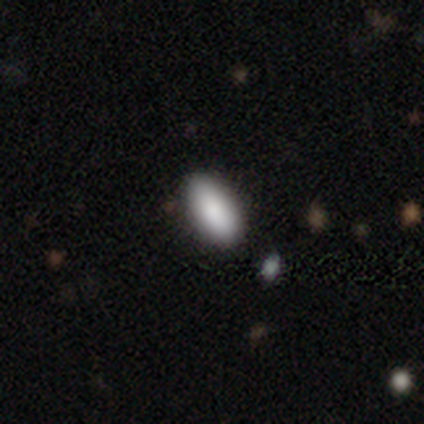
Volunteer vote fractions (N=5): This appears to be a smooth galaxy with no disk features (100%) that is in between round and cigar-shaped (100%). Merging: none (80%).